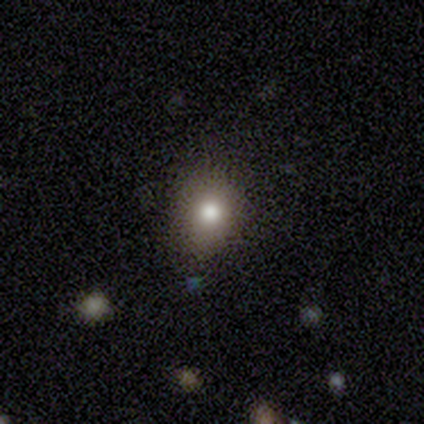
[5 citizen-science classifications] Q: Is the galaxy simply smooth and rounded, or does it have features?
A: smooth — 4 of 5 (80%).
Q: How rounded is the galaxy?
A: in between — 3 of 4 (75%).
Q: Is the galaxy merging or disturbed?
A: none — 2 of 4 (50%, tied with minor disturbance).